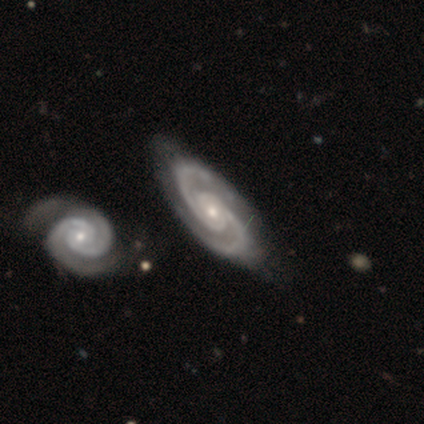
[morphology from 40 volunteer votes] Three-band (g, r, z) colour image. It shows a featured or disk galaxy (90%) with no bar (71%), 2 (94%) tight (54%) spiral arms (100%) and a small central bulge (57%). Merging: none (71%).